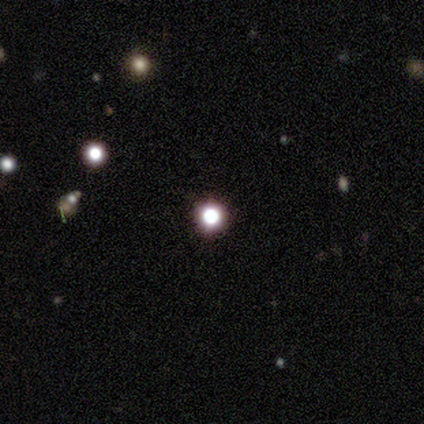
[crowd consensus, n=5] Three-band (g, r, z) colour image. It shows a star or artifact, not a galaxy (60%).